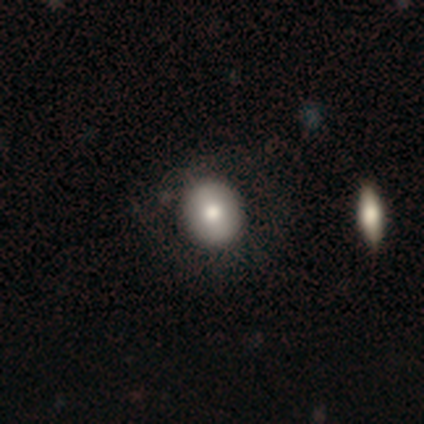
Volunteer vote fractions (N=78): This appears to be a smooth galaxy with no disk features (86%) that is round (84%). Merging: none (39%).